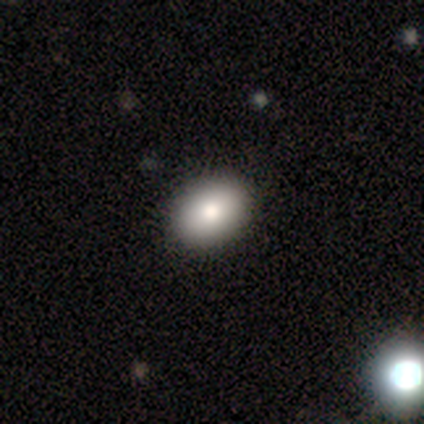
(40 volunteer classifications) Overall: smooth (98%). How rounded: in between (69%; round 31%). Merging: none (68%).